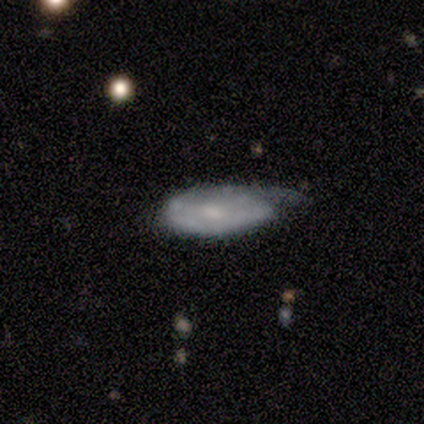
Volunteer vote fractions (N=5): Morphology: type=featured or disk (60%); edge-on=no (67%); bar=weak (50%, tied with no); spiral arms=no (100%); bulge=small (100%); merging=major disturbance (40%).